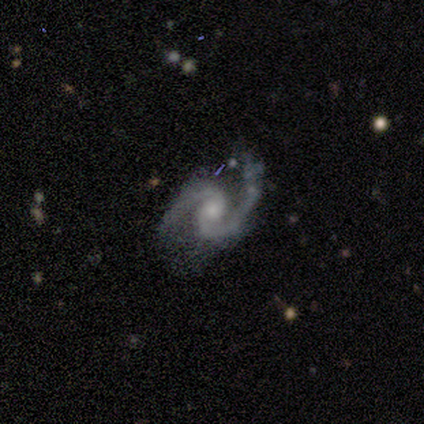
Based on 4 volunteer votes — smooth_or_featured: featured or disk (p=1.00)
disk_edge_on: no (p=1.00)
bar: no (p=1.00)
has_spiral_arms: yes (p=1.00)
spiral_winding: tight (p=0.50) [tied with: medium p=0.50]
spiral_arm_count: 2 (p=1.00)
bulge_size: moderate (p=0.75) [alt: none p=0.25]
merging: none (p=0.50) [alt: minor disturbance p=0.25]